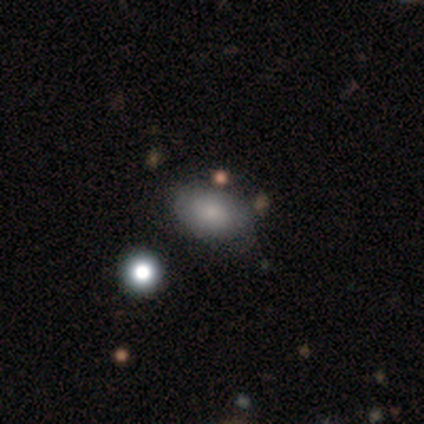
Volunteers were most divided on "smooth or featured": smooth: 60%, featured or disk: 40%, star or artifact: 0%. More confident: how rounded — in between (67%); merging — none (60%).